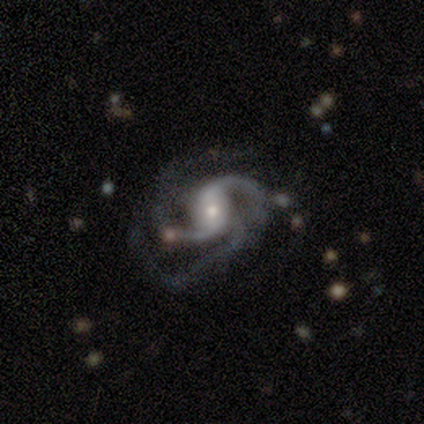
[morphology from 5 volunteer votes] smooth_or_featured: featured or disk (p=1.00)
disk_edge_on: no (p=1.00)
bar: strong (p=0.40) [tied with: no p=0.40]
has_spiral_arms: yes (p=1.00)
spiral_winding: loose (p=0.60) [alt: tight p=0.20]
spiral_arm_count: 3 (p=1.00)
bulge_size: moderate (p=0.60) [alt: small p=0.40]
merging: none (p=0.80) [alt: major disturbance p=0.20]